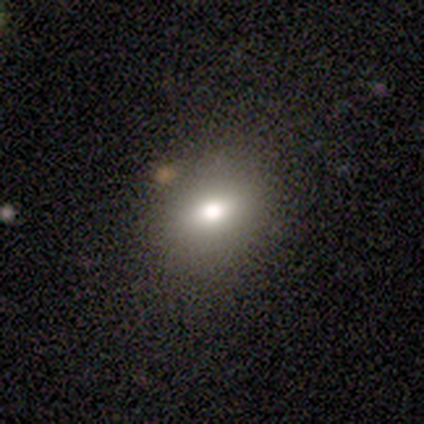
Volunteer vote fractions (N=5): Q: Smooth or featured?
A: smooth (40%); tied with: featured or disk (40%)
Q: How rounded?
A: in between (100%)
Q: Merging?
A: none (75%); runner-up: minor disturbance (25%)